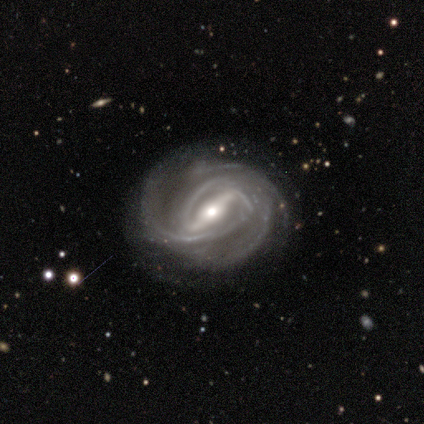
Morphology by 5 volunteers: smooth-or-featured: featured or disk: 100% | smooth: 0% | star or artifact: 0%
  disk-edge-on: no: 100% | yes: 0%
    bar: strong: 100% | weak: 0% | no: 0%
    has-spiral-arms: yes: 100% | no: 0%
      spiral-winding: tight: 80% | medium: 20% | loose: 0%
      spiral-arm-count: 2: 80% | more than 4: 20% | 1: 0% | 3: 0% | 4: 0% | can't tell: 0%
    bulge-size: small: 80% | moderate: 20% | dominant: 0% | large: 0% | none: 0%
  merging: none: 100% | minor disturbance: 0% | major disturbance: 0% | merger: 0%